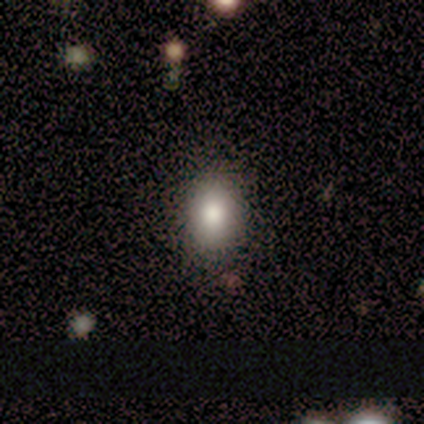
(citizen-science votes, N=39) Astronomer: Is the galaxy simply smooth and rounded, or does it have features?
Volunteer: smooth — 85%.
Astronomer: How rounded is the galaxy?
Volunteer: in between — 79%.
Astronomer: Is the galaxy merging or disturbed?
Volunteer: none — 89%.